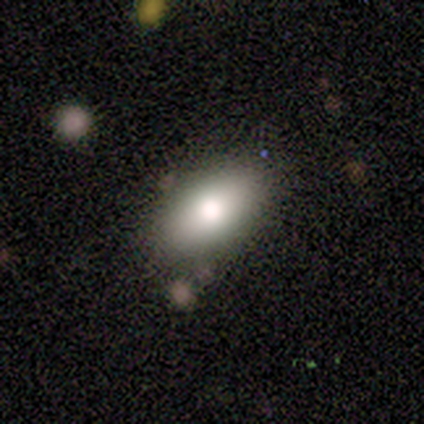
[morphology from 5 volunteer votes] Smooth or featured: smooth — 80% (featured or disk — 20%)
How rounded: in between — 100%
Merging: none — 100%